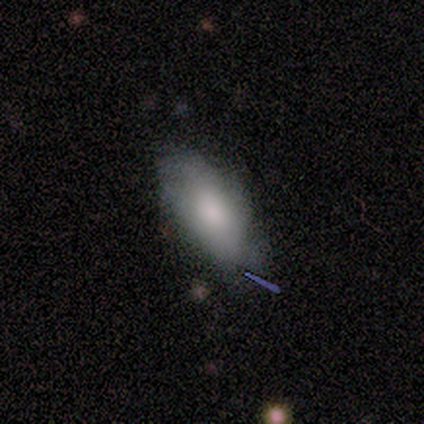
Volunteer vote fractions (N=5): Morphology: type=smooth (80%); roundness=in between (100%); merging=minor disturbance (60%).